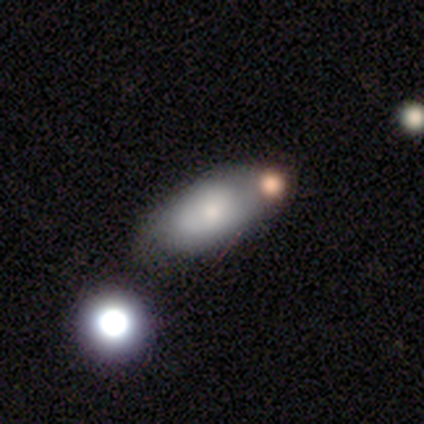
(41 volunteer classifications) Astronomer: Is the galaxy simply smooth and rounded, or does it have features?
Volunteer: smooth — 68%.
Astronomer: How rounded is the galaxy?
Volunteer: in between — 86%.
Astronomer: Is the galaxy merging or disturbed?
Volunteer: none — 48%.